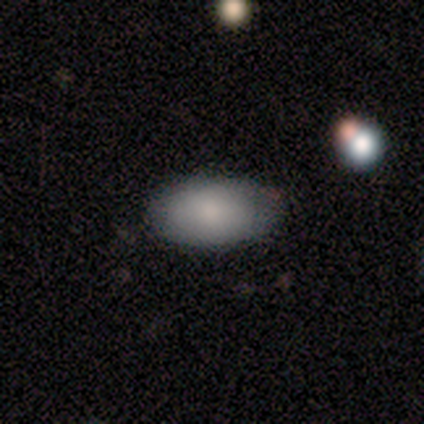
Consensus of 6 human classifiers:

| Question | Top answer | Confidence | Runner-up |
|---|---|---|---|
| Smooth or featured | smooth | 67% | featured or disk (33%) |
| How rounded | in between | 100% | — |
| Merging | none | 100% | — |